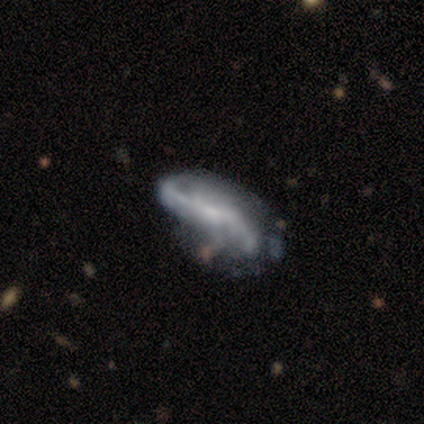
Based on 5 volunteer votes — Smooth or featured: featured or disk — 60% (smooth — 20%)
Edge-on disk: no — 100%
Bar: weak — 67% (no — 33%)
Spiral arms: no — 67% (yes — 33%)
Bulge size: none — 67% (small — 33%)
Merging: major disturbance — 100%